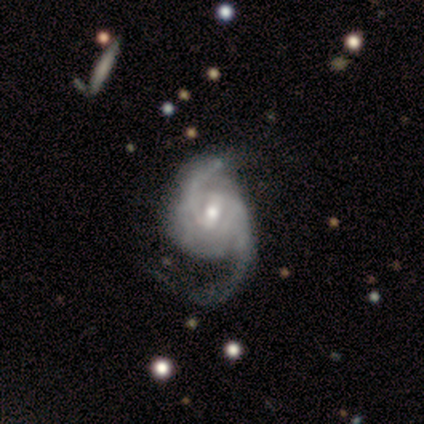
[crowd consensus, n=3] This is clearly a featured or disk galaxy (100%). It is likely not viewed edge-on (67%). Bar: clearly weak (100%). Spiral arm pattern: clearly yes (100%). Spiral arm count: possibly 2 (50%, tied with 3). Spiral winding: possibly tight (50%, tied with medium). Central bulge: clearly moderate (100%). Merging: likely major disturbance (67%).